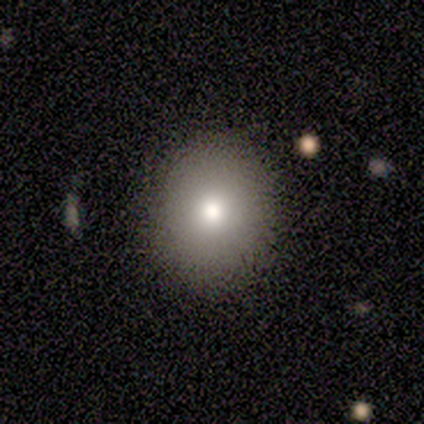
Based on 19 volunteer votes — Overall: smooth (68%). How rounded: round (85%). Merging: none (94%).